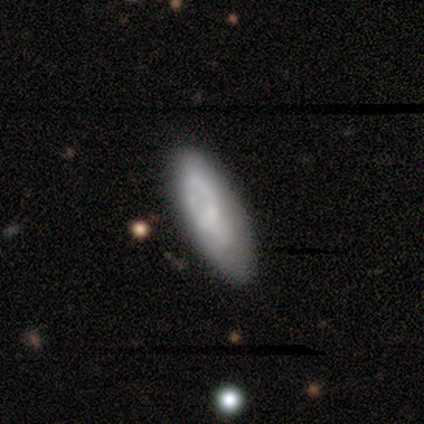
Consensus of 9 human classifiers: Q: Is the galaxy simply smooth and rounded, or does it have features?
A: featured or disk — 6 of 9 (67%).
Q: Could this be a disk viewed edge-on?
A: no — 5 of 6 (83%).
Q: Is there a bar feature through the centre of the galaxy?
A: no — 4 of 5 (80%).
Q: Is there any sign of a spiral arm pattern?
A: yes — 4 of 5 (80%).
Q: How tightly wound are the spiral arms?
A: loose — 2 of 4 (50%).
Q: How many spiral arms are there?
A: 1 — 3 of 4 (75%).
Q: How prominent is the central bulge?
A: small — 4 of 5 (80%).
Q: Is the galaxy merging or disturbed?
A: none — 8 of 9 (89%).